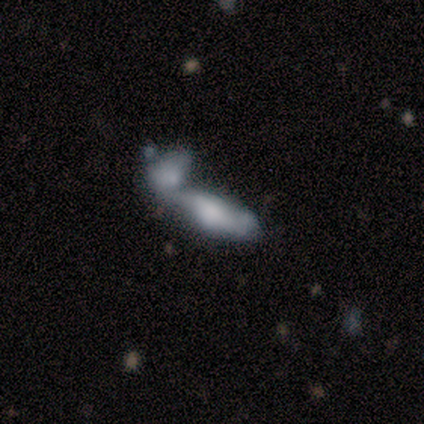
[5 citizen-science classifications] This appears to be a smooth galaxy with no disk features (40%, tied with featured or disk) that is in between round and cigar-shaped (100%). Merging: merger (100%).